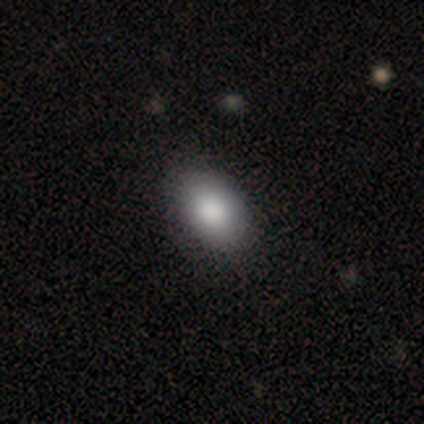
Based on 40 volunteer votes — This is clearly a smooth galaxy (88%). How rounded: clearly in between (86%). Merging: possibly none (51%).